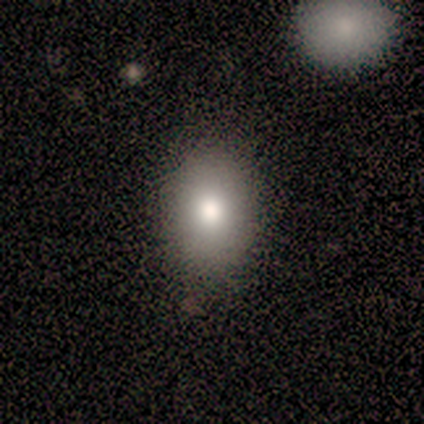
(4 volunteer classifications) smooth-or-featured: smooth: 100% | featured or disk: 0% | star or artifact: 0%
  how-rounded: in between: 100% | round: 0% | cigar-shaped: 0%
  merging: none: 100% | minor disturbance: 0% | major disturbance: 0% | merger: 0%